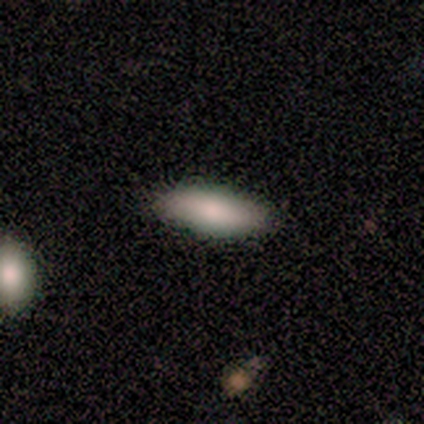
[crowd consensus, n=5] Smooth or featured? 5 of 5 (100%) said smooth. How rounded? 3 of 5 (60%) said cigar-shaped. Merging? 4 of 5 (80%) said none.